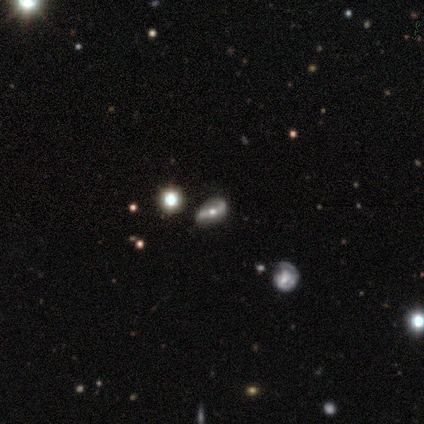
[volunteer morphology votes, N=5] Smooth or featured: featured or disk — 60% (smooth — 20%)
Edge-on disk: no — 67% (yes — 33%)
Bar: strong — 50% (tied with weak — 50%)
Spiral arms: yes — 100%
Spiral winding: tight — 50% (tied with medium — 50%)
Spiral arm count: 2 — 100%
Bulge size: moderate — 50% (tied with small — 50%)
Merging: none — 75% (minor disturbance — 25%)